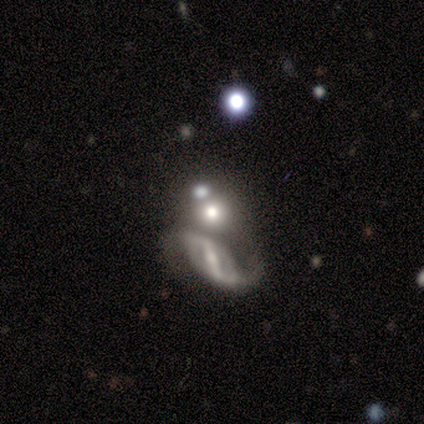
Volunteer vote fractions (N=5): Q: Smooth or featured?
A: featured or disk (60%); runner-up: smooth (40%)
Q: Edge-on disk?
A: no (100%)
Q: Bar?
A: strong (33%); tied with: weak (33%); no (33%)
Q: Spiral arms?
A: yes (67%); runner-up: no (33%)
Q: Spiral winding?
A: medium (50%); tied with: loose (50%)
Q: Spiral arm count?
A: 2 (100%)
Q: Bulge size?
A: moderate (67%); runner-up: none (33%)
Q: Merging?
A: none (60%); runner-up: minor disturbance (20%)